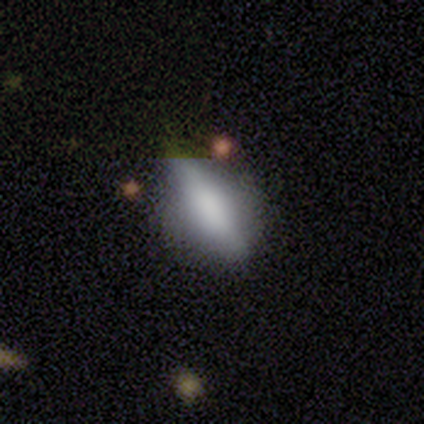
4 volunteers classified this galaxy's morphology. smooth 75%, star or artifact 25%, featured or disk 0%. Down the decision tree: how rounded — in between (67%); merging — none (67%).